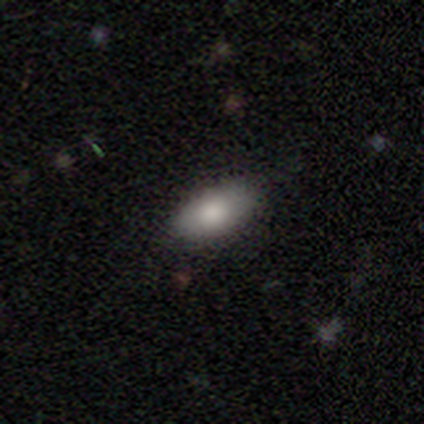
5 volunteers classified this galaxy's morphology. This appears to be a smooth galaxy with no disk features (80%) that is in between round and cigar-shaped (100%). Merging: none (80%).